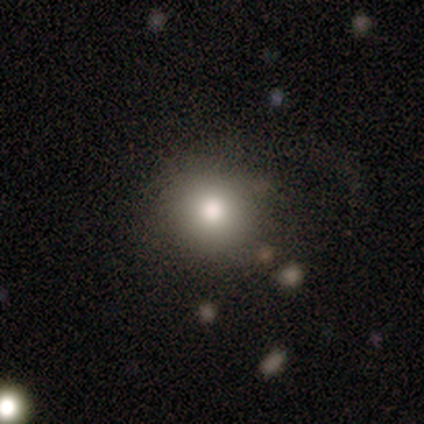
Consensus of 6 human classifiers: smooth 50%, featured or disk 33%, star or artifact 17%. Down the decision tree: how rounded — round (100%); merging — major disturbance (60%).